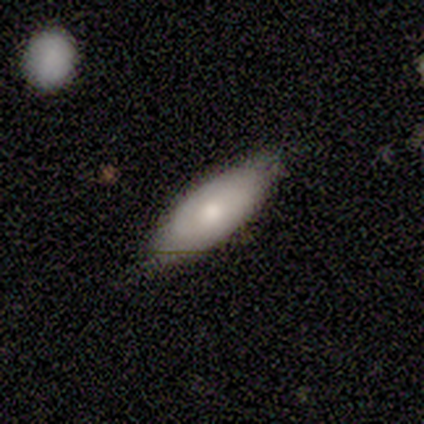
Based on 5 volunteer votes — A smooth galaxy with no disk features (60%) that is in between round and cigar-shaped (100%). Merging: none (80%).